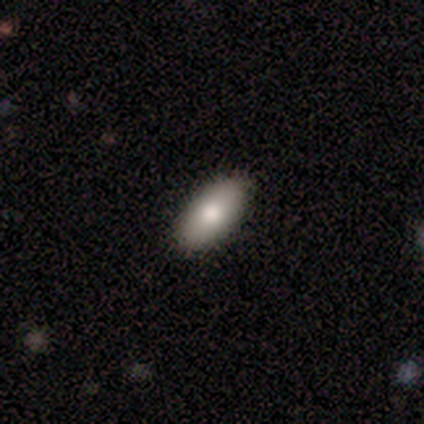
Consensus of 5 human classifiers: Q: Smooth or featured?
A: smooth (60%); runner-up: featured or disk (40%)
Q: How rounded?
A: in between (100%)
Q: Merging?
A: none (100%)